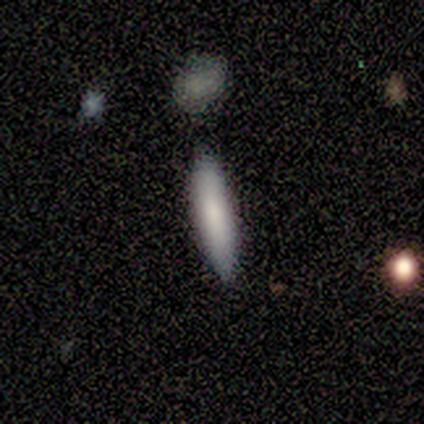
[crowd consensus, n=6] smooth-or-featured: smooth: 83% | featured or disk: 17% | star or artifact: 0%
  how-rounded: cigar-shaped: 80% | in between: 20% | round: 0%
  merging: none: 100% | minor disturbance: 0% | major disturbance: 0% | merger: 0%